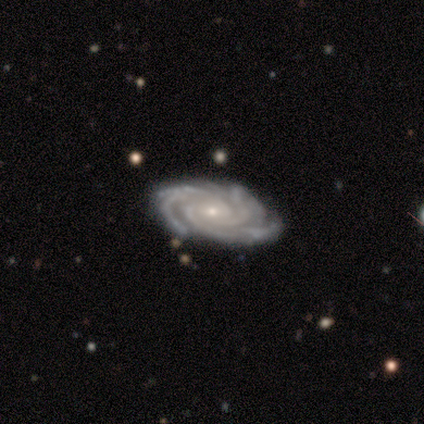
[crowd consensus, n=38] Smooth or featured? 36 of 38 (95%) said featured or disk. Edge-on disk? 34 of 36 (94%) said no. Bar? 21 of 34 (62%) said no. Spiral arms? 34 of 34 (100%) said yes. Spiral winding? 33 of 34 (97%) said tight. Spiral arm count? 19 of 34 (56%) said 3. Bulge size? 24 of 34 (71%) said small. Merging? 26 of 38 (68%) said none.